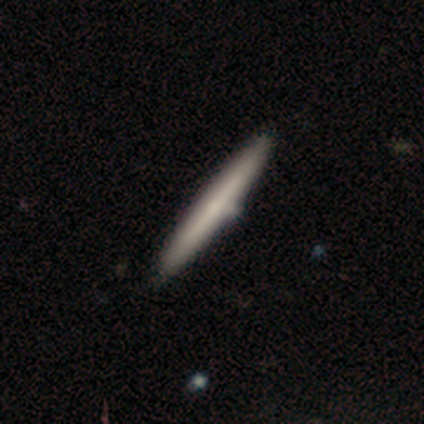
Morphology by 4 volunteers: smooth_or_featured: featured or disk (p=0.75) [alt: smooth p=0.25]
disk_edge_on: yes (p=1.00)
edge_on_bulge: rounded (p=0.67) [alt: none p=0.33]
merging: minor disturbance (p=0.75) [alt: none p=0.25]